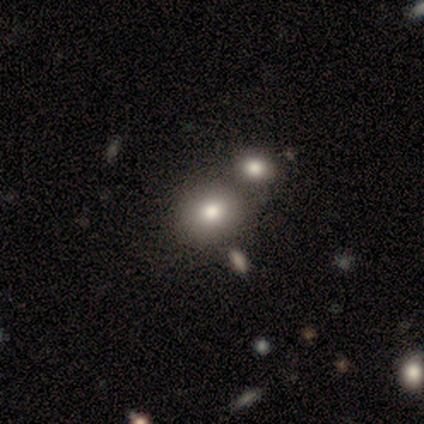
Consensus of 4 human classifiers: Smooth or featured? 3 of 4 (75%) said smooth. How rounded? 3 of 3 (100%) said round. Merging? 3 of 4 (75%) said merger.